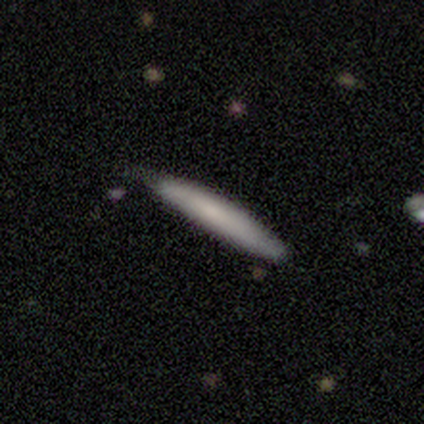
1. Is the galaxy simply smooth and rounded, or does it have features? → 100% smooth, 0% featured or disk, 0% star or artifact.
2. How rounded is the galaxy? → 80% cigar-shaped, 20% in between, 0% round.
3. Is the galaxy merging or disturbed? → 80% none, 20% minor disturbance, 0% major disturbance, 0% merger.